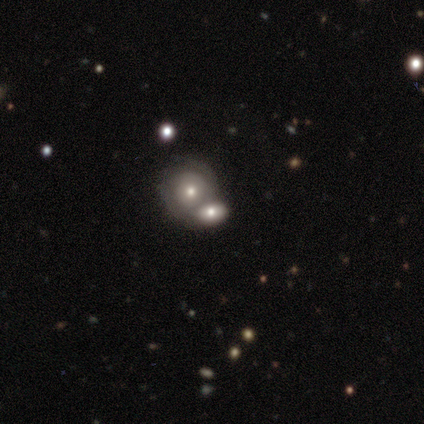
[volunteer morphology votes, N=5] Q: Smooth or featured?
A: smooth (40%); tied with: featured or disk (40%)
Q: How rounded?
A: round (50%); tied with: in between (50%)
Q: Merging?
A: merger (100%)